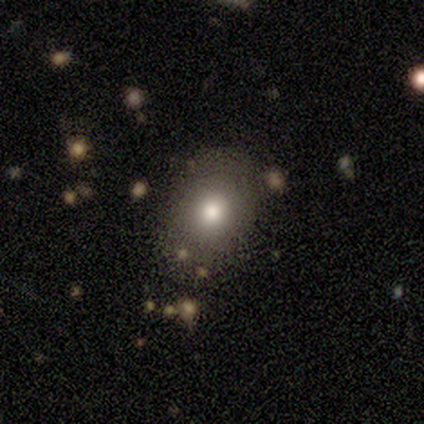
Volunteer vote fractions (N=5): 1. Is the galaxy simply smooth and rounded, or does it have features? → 60% smooth, 20% featured or disk, 20% star or artifact.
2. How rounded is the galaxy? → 67% in between, 33% round, 0% cigar-shaped.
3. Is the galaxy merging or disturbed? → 50% none (tied), 50% minor disturbance (tied), 0% major disturbance, 0% merger.